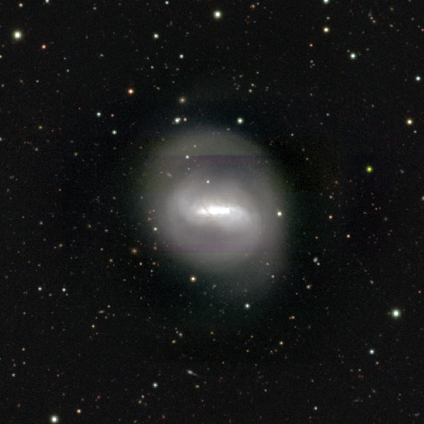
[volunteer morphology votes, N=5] Smooth or featured? 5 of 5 (100%) said featured or disk. Edge-on disk? 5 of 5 (100%) said no. Bar? 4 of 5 (80%) said strong. Spiral arms? 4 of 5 (80%) said yes. Spiral winding? 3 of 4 (75%) said tight. Spiral arm count? 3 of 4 (75%) said 2. Bulge size? 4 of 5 (80%) said moderate. Merging? 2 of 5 (40%, tied with minor disturbance) said none.